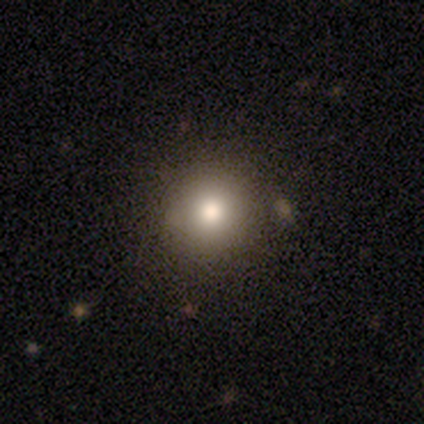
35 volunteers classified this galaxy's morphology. smooth-or-featured: smooth: 80% | featured or disk: 14% | star or artifact: 6%
  how-rounded: round: 96% | in between: 4% | cigar-shaped: 0%
  merging: none: 91% | merger: 6% | minor disturbance: 3% | major disturbance: 0%